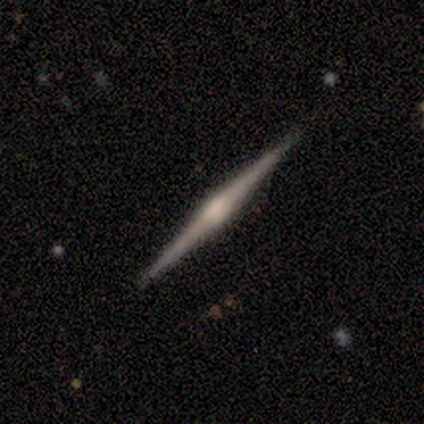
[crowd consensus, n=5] smooth_or_featured: featured or disk (p=1.00)
disk_edge_on: yes (p=1.00)
edge_on_bulge: rounded (p=0.60) [alt: boxy p=0.40]
merging: none (p=1.00)